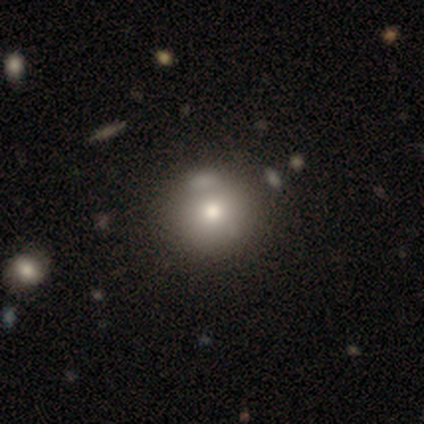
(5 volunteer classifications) Smooth or featured: smooth — 40% (tied with star or artifact — 40%)
How rounded: round — 100%
Merging: none — 67% (merger — 33%)